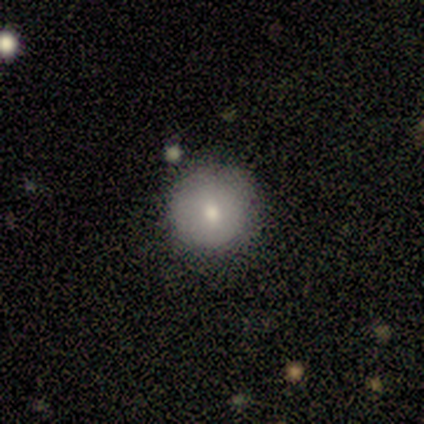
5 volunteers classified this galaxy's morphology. smooth_or_featured: smooth (p=0.80) [alt: featured or disk p=0.20]
how_rounded: round (p=1.00)
merging: none (p=1.00)